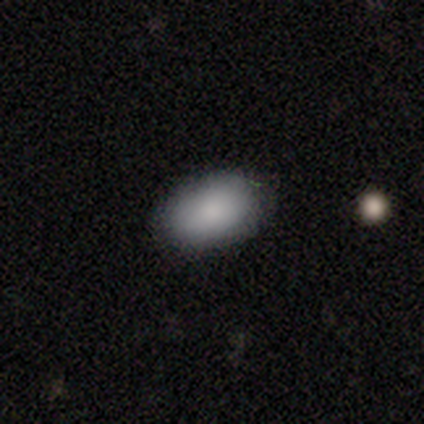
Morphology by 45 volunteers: Smooth or featured: smooth — 87% (featured or disk — 7%)
How rounded: in between — 100%
Merging: none — 81% (minor disturbance — 14%)